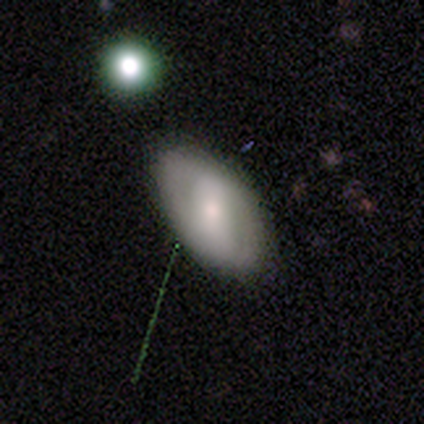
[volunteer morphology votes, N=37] Volunteers were most divided on "bar" (2-way tie): strong: 40%, no: 40%, weak: 20%. Remaining: edge-on disk — no (83%); merging — none (82%); spiral arm count — 2 (62%); spiral arms — yes (53%); bulge size — moderate (53%); spiral winding — tight (50%); smooth or featured — featured or disk (49%).